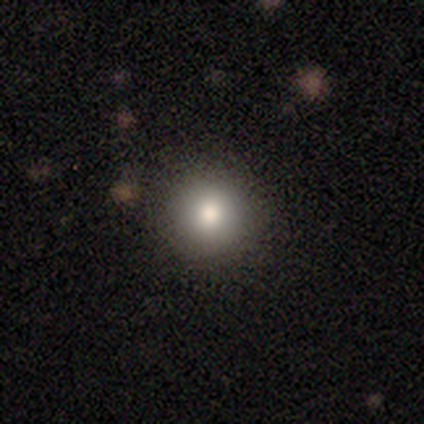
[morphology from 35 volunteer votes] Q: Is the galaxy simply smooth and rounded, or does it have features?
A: smooth — 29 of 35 (83%).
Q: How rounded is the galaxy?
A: round — 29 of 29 (100%).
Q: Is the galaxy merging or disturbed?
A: none — 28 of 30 (93%).